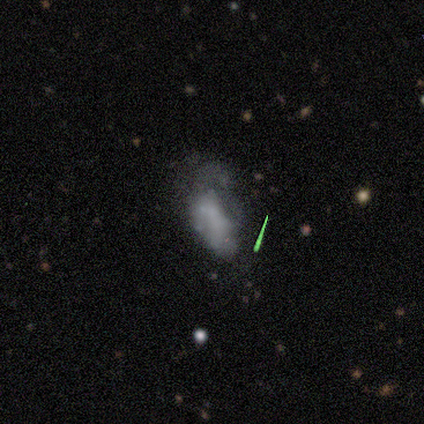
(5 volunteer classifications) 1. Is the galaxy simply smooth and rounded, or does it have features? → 60% smooth, 40% featured or disk, 0% star or artifact.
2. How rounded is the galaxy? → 100% in between, 0% round, 0% cigar-shaped.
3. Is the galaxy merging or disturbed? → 80% major disturbance, 20% none, 0% minor disturbance, 0% merger.